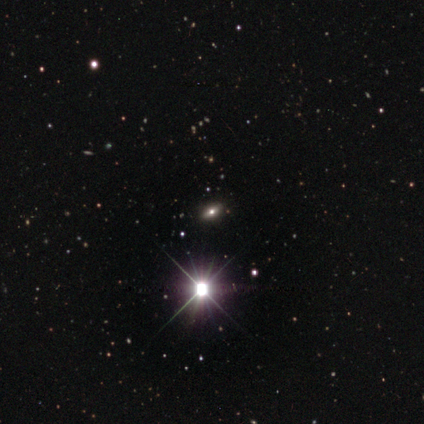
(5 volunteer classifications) A featured or disk galaxy (40%, tied with star or artifact) with no bar (100%), no spiral arms (100%) and a large central bulge (100%). Merging: none (100%).